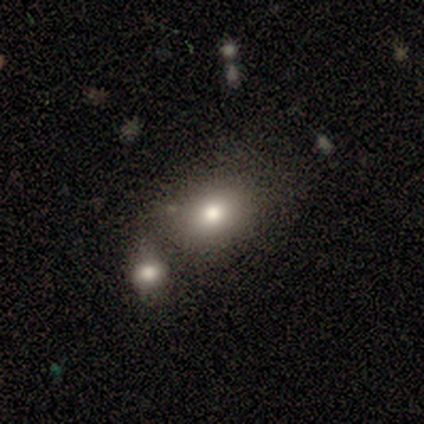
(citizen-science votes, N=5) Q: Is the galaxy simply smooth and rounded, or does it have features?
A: smooth — 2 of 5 (40%, tied with star or artifact).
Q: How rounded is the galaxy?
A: round — 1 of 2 (50%, tied with in between).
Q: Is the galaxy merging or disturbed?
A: none — 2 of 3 (67%).